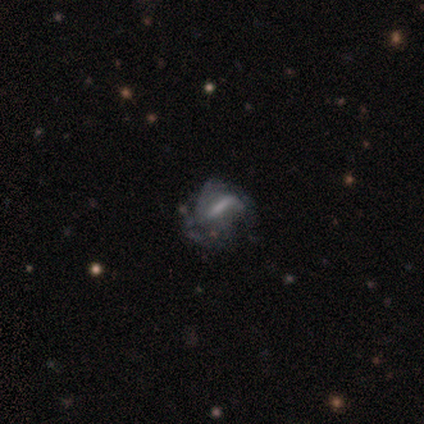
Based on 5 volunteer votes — This is marginally a smooth galaxy (40%, tied with featured or disk). How rounded: possibly in between (50%, tied with cigar-shaped). Merging: possibly major disturbance (50%).